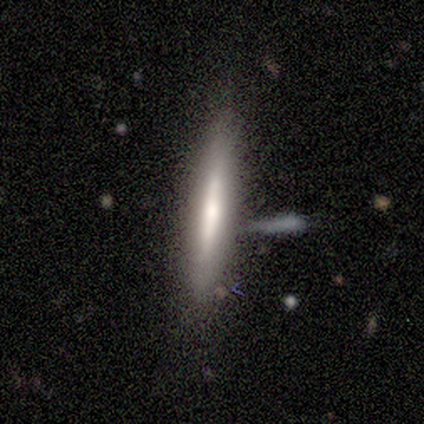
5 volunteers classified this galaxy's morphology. Smooth or featured: featured or disk — 60% (smooth — 20%)
Edge-on disk: yes — 67% (no — 33%)
Edge-on bulge: boxy — 50% (tied with none — 50%)
Merging: none — 75% (minor disturbance — 25%)